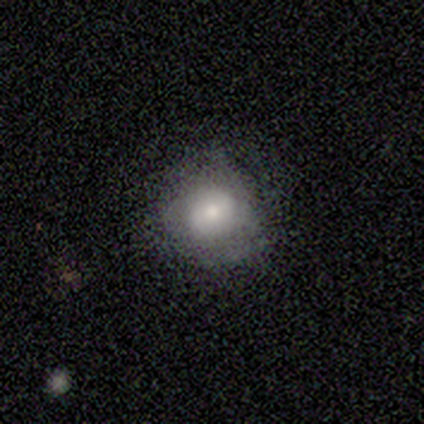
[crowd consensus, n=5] smooth_or_featured: featured or disk (p=0.60) [alt: smooth p=0.40]
disk_edge_on: no (p=1.00)
bar: weak (p=0.67) [alt: no p=0.33]
has_spiral_arms: yes (p=0.67) [alt: no p=0.33]
spiral_winding: tight (p=1.00)
spiral_arm_count: 3 (p=0.50) [tied with: can't tell p=0.50]
bulge_size: moderate (p=1.00)
merging: none (p=0.60) [alt: minor disturbance p=0.40]